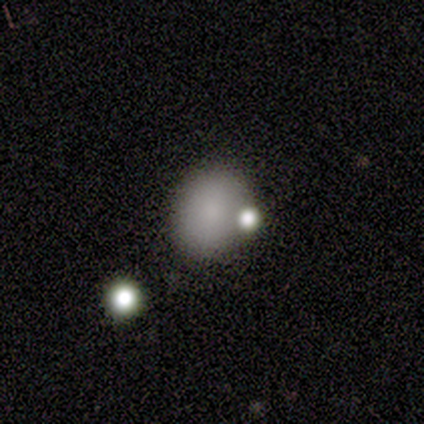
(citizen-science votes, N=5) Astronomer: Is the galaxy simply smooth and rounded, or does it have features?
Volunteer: smooth — 80%.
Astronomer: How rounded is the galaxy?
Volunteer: round — 75%.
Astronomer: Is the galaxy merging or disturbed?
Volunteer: none — 50%.